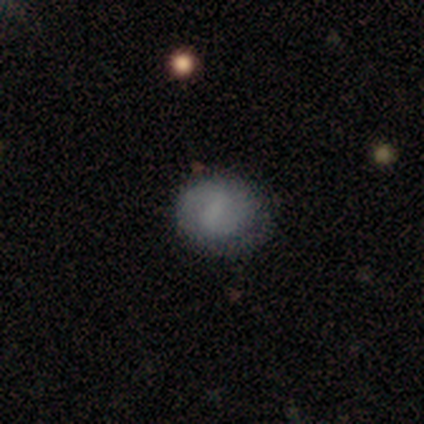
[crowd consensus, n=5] This appears to be a smooth galaxy with no disk features (60%) that is round (100%). Merging: none (80%).